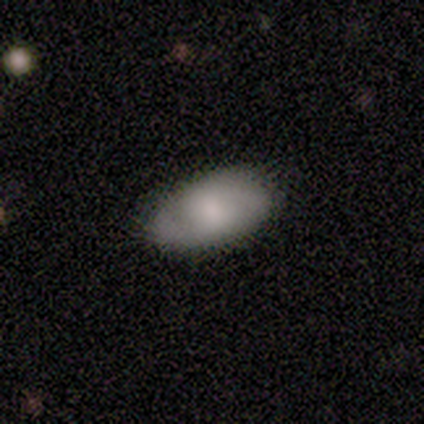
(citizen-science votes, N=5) smooth-or-featured: featured or disk: 80% | smooth: 20% | star or artifact: 0%
  disk-edge-on: yes: 50% (tied) | no: 50% (tied)
    edge-on-bulge: rounded: 100% | boxy: 0% | none: 0%
  merging: none: 80% | minor disturbance: 20% | major disturbance: 0% | merger: 0%